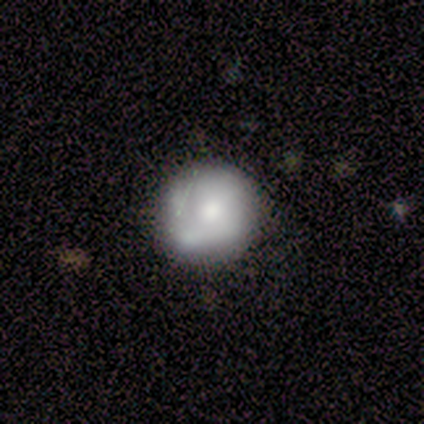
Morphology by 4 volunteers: This appears to be a smooth galaxy with no disk features (50%, tied with featured or disk) that is round (100%). Merging: none (100%).